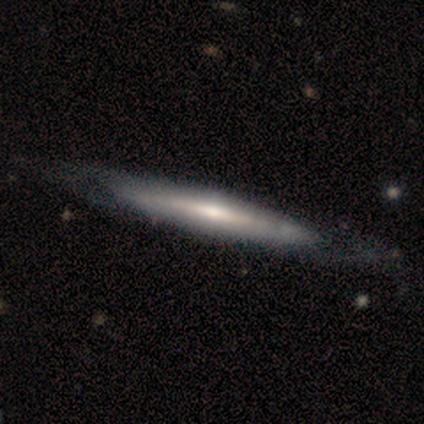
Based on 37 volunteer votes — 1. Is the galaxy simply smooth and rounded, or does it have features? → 65% featured or disk, 35% smooth, 0% star or artifact.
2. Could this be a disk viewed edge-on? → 88% yes, 12% no.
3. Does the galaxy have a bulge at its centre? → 71% rounded, 19% none, 10% boxy.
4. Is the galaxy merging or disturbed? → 62% none, 14% minor disturbance, 8% major disturbance, 5% merger.